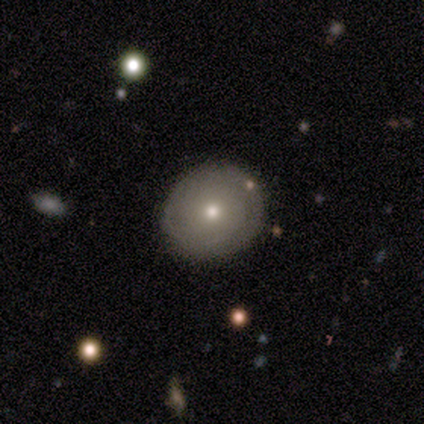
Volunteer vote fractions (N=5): This appears to be a smooth galaxy with no disk features (80%) that is round (75%). Merging: none (100%).